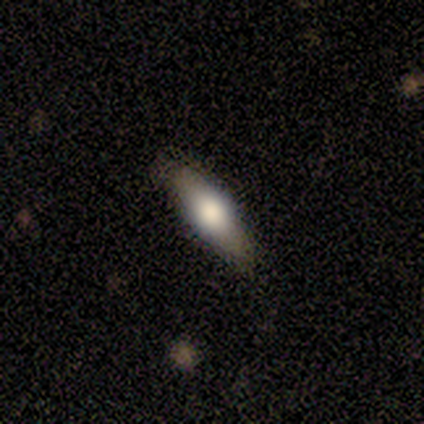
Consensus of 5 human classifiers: smooth 60%, featured or disk 40%, star or artifact 0%. Down the decision tree: how rounded — in between (67%); merging — none (100%).